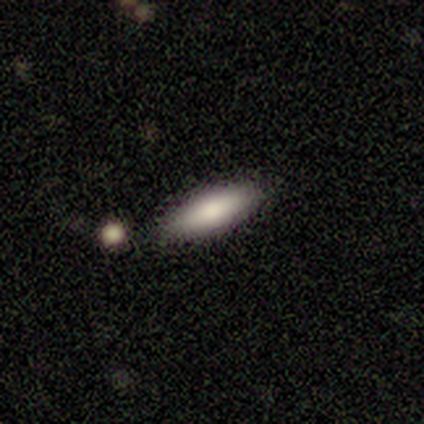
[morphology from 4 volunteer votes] Smooth or featured? smooth (75%)
How rounded? cigar-shaped (67%)
Merging? none (100%)